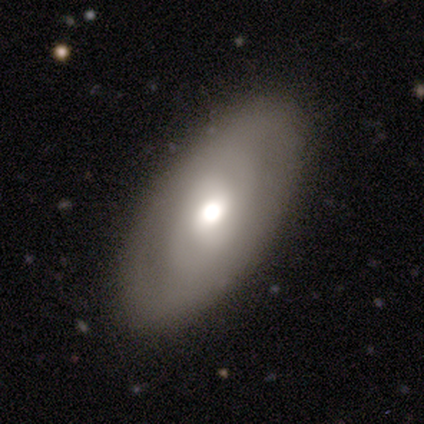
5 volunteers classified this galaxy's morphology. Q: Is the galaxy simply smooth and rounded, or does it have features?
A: featured or disk — 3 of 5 (60%).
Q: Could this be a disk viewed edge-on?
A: no — 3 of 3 (100%).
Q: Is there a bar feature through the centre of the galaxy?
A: no — 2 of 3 (67%).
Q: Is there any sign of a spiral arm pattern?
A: yes — 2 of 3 (67%).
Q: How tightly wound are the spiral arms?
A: tight — 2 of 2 (100%).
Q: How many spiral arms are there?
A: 2 — 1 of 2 (50%, tied with 4).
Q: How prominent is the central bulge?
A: large — 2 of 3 (67%).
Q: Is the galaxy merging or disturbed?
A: none — 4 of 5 (80%).